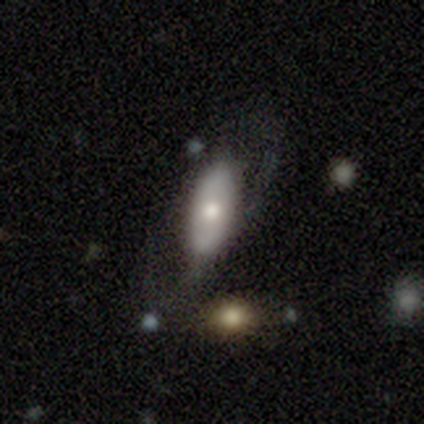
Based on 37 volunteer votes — Smooth or featured?
  - smooth: 59% *
  - featured or disk: 35%
  - star or artifact: 5%
How rounded?
  - in between: 86% *
  - cigar-shaped: 14%
  - round: 0%
Merging?
  - none: 46% *
  - minor disturbance: 31%
  - major disturbance: 23%
  - merger: 0%